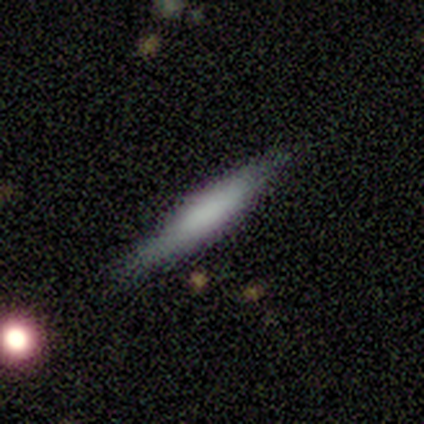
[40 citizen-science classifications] Smooth or featured?
  - smooth: 62% *
  - featured or disk: 28%
  - star or artifact: 10%
How rounded?
  - cigar-shaped: 88% *
  - in between: 12%
  - round: 0%
Merging?
  - none: 89% *
  - minor disturbance: 8%
  - major disturbance: 3%
  - merger: 0%